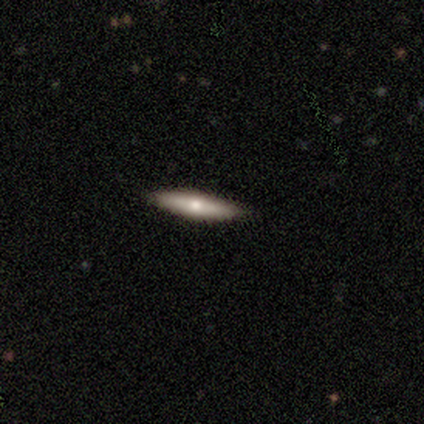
Smooth or featured? smooth (60%)
How rounded? cigar-shaped (100%)
Merging? none (100%)